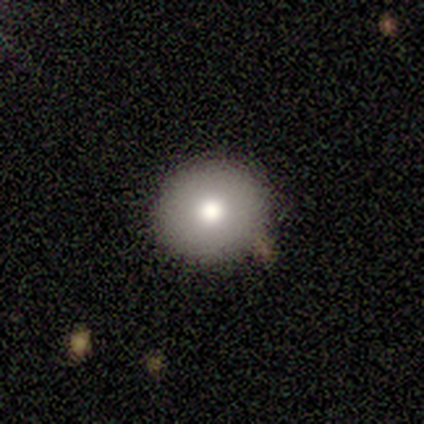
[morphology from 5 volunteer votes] type=smooth (60%); roundness=round (100%); merging=none (75%).